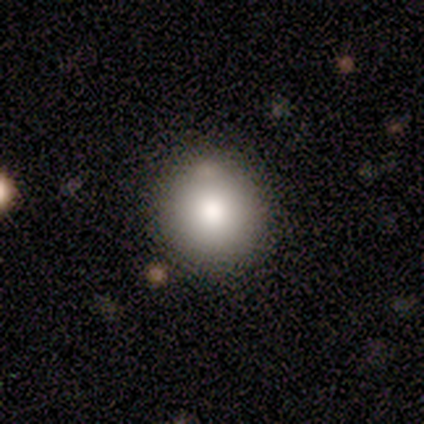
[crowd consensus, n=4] smooth-or-featured: smooth: 100% | featured or disk: 0% | star or artifact: 0%
  how-rounded: round: 75% | in between: 25% | cigar-shaped: 0%
  merging: none: 100% | minor disturbance: 0% | major disturbance: 0% | merger: 0%